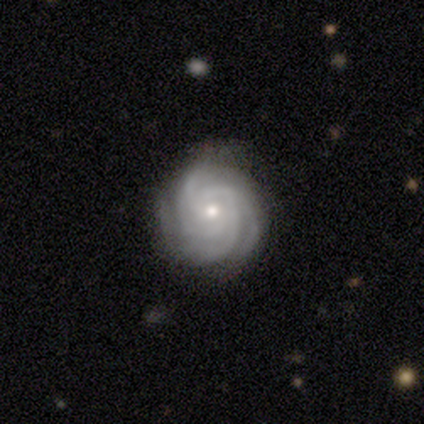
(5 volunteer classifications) A featured or disk galaxy (100%) with no bar (100%), 4 (60%) tight (80%) spiral arms (100%) and a small central bulge (60%).

Vote fractions:
- Smooth or featured? featured or disk: 100% / smooth: 0% / star or artifact: 0%
- Edge-on disk? no: 100% / yes: 0%
- Bar? no: 100% / strong: 0% / weak: 0%
- Spiral arms? yes: 100% / no: 0%
- Spiral winding? tight: 80% / loose: 20% / medium: 0%
- Spiral arm count? 4: 60% / 3: 20% / more than 4: 20% / 1: 0% / 2: 0% / can't tell: 0%
- Bulge size? small: 60% / moderate: 40% / dominant: 0% / large: 0% / none: 0%
- Merging? minor disturbance: 60% / none: 40% / major disturbance: 0% / merger: 0%